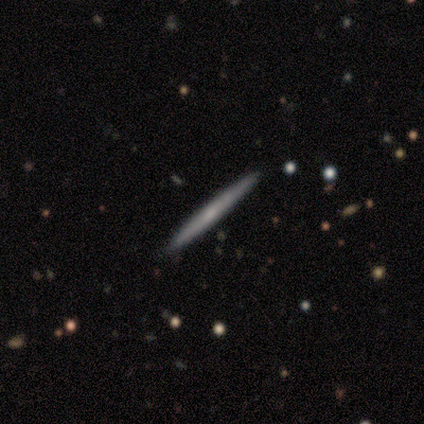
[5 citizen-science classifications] Smooth or featured? 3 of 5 (60%) said featured or disk. Edge-on disk? 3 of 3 (100%) said yes. Edge-on bulge? 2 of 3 (67%) said rounded. Merging? 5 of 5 (100%) said none.